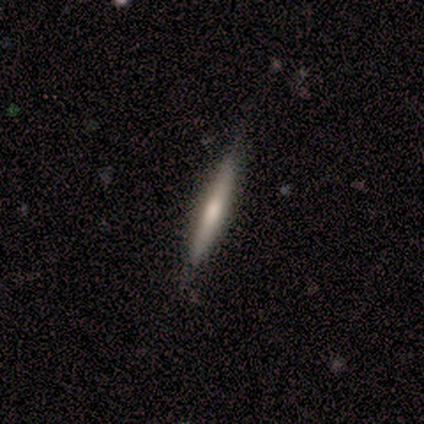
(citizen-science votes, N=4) Smooth or featured?
  - smooth: 50% * (tied)
  - featured or disk: 50% * (tied)
  - star or artifact: 0%
How rounded?
  - cigar-shaped: 100% *
  - round: 0%
  - in between: 0%
Merging?
  - none: 75% *
  - minor disturbance: 25%
  - major disturbance: 0%
  - merger: 0%